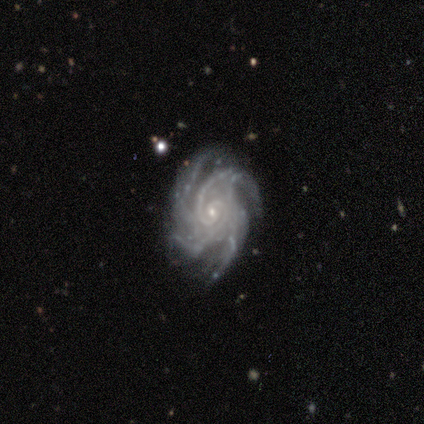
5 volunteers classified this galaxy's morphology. featured or disk 100%, smooth 0%, star or artifact 0%. Down the decision tree: edge-on disk — no (100%); bar — no (80%); spiral arms — yes (100%); spiral arm count — 4 (60%); spiral winding — medium (60%); bulge size — small (100%); merging — none (40%, tied with minor disturbance).